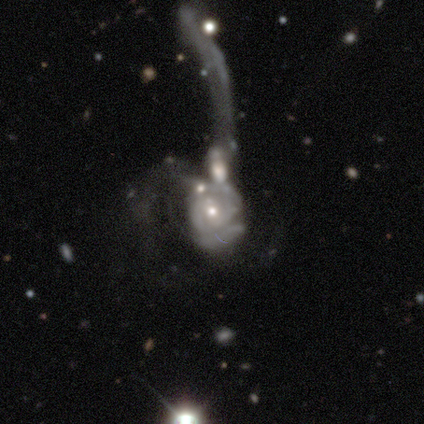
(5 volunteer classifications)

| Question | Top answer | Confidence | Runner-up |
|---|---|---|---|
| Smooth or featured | featured or disk | 80% | smooth (20%) |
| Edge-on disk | no | 100% | — |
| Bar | no | 100% | — |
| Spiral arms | yes | 75% | no (25%) |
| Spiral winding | tight | 100% | — |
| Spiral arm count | can't tell | 100% | — |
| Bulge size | moderate | 50% | tied: small (50%) |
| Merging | merger | 60% | major disturbance (40%) |